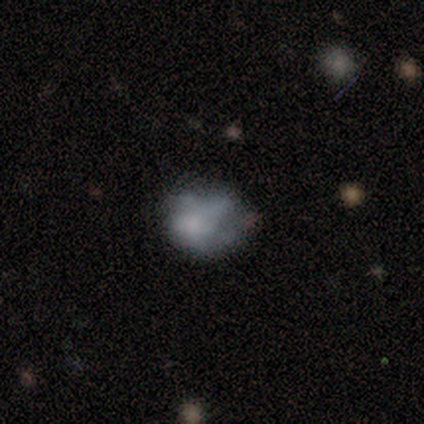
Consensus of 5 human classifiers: Volunteers were most divided on "smooth or featured" (2-way tie): smooth: 40%, star or artifact: 40%, featured or disk: 20%; "how rounded" (2-way tie): round: 50%, in between: 50%, cigar-shaped: 0%. More confident: merging — minor disturbance (67%).